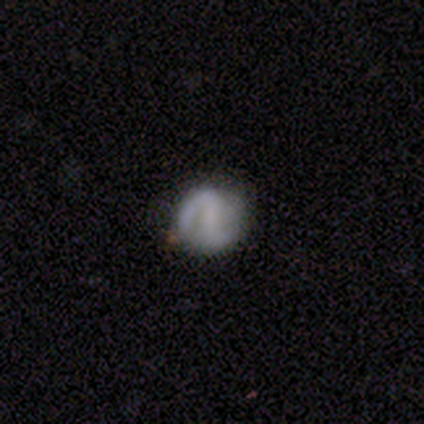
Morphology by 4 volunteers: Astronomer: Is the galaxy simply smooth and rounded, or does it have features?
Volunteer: featured or disk — 50%.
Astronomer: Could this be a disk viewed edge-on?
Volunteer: yes — 50%, tied with no at 50%.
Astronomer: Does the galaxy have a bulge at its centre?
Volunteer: rounded — 100%.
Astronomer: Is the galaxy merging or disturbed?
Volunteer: none — 100%.